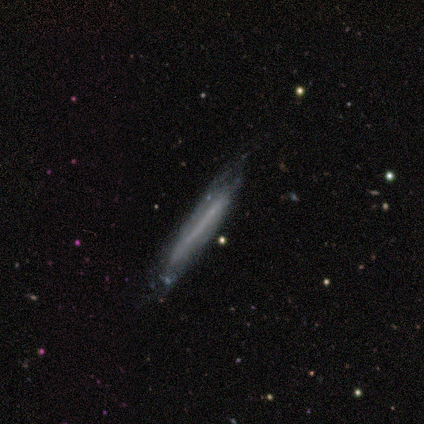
Smooth or featured? featured or disk (80%)
Edge-on disk? yes (100%)
Edge-on bulge? none (100%)
Merging? none (60%)